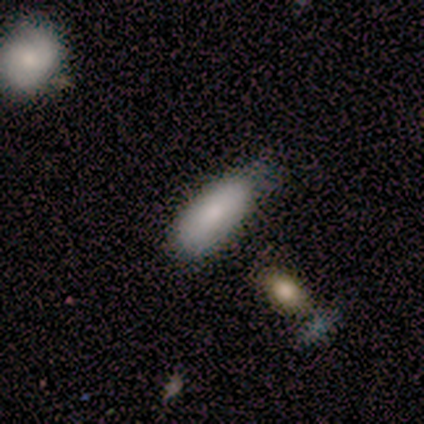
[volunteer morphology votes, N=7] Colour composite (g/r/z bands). It shows a smooth galaxy with no disk features (100%) that is in between round and cigar-shaped (71%). Merging: none (57%).